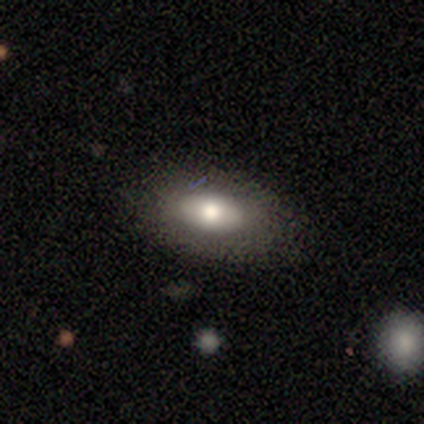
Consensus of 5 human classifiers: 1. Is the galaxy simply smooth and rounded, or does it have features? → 80% smooth, 20% featured or disk, 0% star or artifact.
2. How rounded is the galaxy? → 75% in between, 25% round, 0% cigar-shaped.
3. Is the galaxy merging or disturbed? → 60% none, 40% minor disturbance, 0% major disturbance, 0% merger.